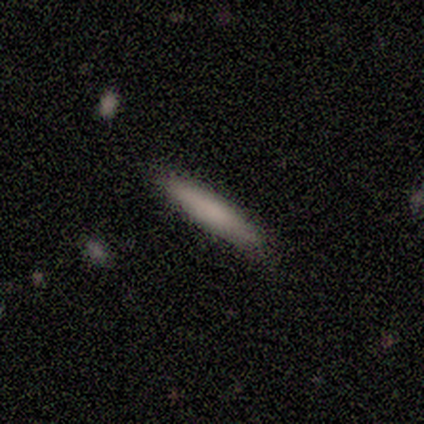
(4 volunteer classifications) Morphology: type=smooth (100%); roundness=cigar-shaped (100%); merging=none (100%).